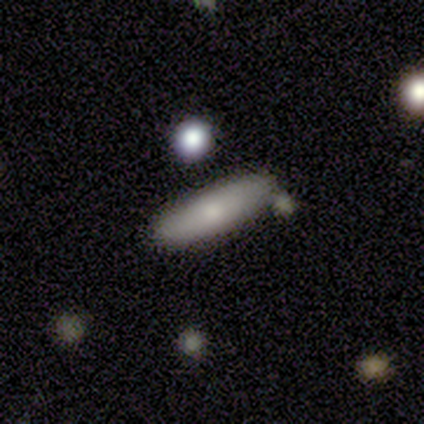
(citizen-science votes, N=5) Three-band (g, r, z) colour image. It shows a smooth galaxy with no disk features (80%) that is cigar-shaped (75%). Merging: none (80%).